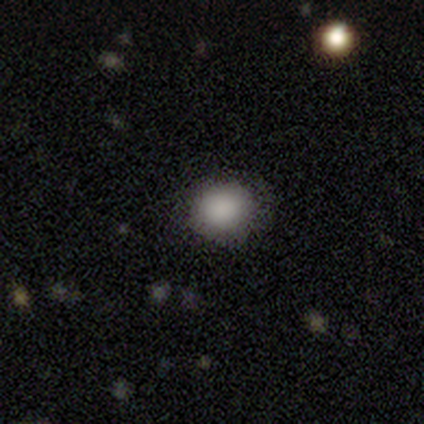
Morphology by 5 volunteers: Smooth or featured: smooth — 100%
How rounded: round — 100%
Merging: none — 100%